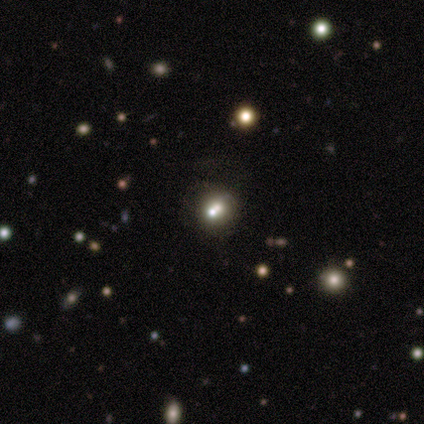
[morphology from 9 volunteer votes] smooth 56%, featured or disk 22%, star or artifact 22%. Down the decision tree: how rounded — round (80%); merging — none (71%).